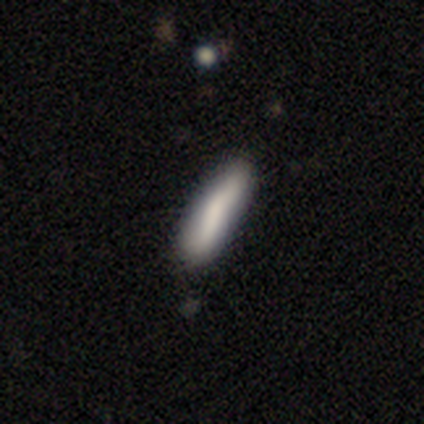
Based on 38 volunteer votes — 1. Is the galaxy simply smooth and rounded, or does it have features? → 71% smooth, 18% featured or disk, 11% star or artifact.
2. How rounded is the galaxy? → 85% cigar-shaped, 15% in between, 0% round.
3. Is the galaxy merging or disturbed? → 68% none, 26% minor disturbance, 6% merger, 0% major disturbance.